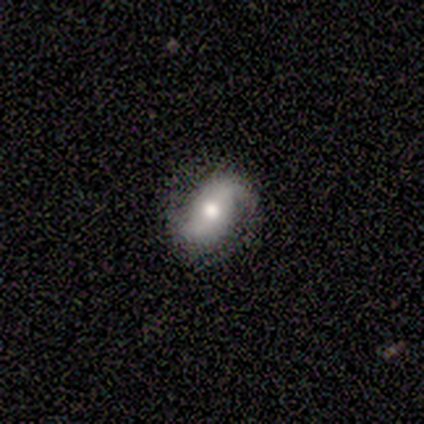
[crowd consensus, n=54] Smooth or featured? featured or disk (83%)
Edge-on disk? no (96%)
Bar? no (67%)
Spiral arms? yes (93%)
Spiral winding? loose (50%)
Spiral arm count? 2 (95%)
Bulge size? moderate (79%)
Merging? none (75%)